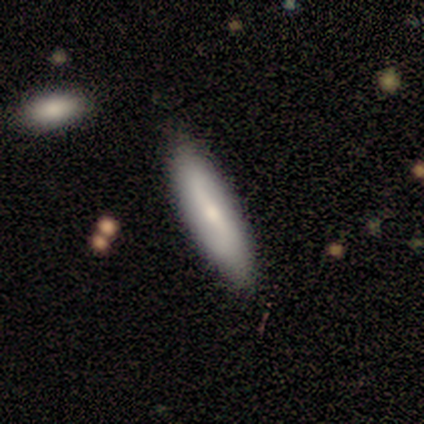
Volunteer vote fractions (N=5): smooth 60%, featured or disk 40%, star or artifact 0%. Down the decision tree: how rounded — cigar-shaped (67%); merging — none (80%).